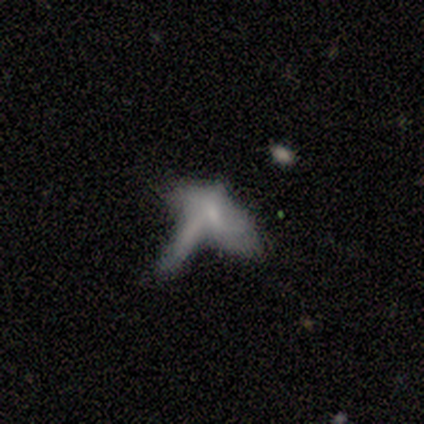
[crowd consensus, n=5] Volunteers were most divided on "smooth or featured" (2-way tie): smooth: 40%, star or artifact: 40%, featured or disk: 20%. More confident: how rounded — in between (100%); merging — merger (67%).